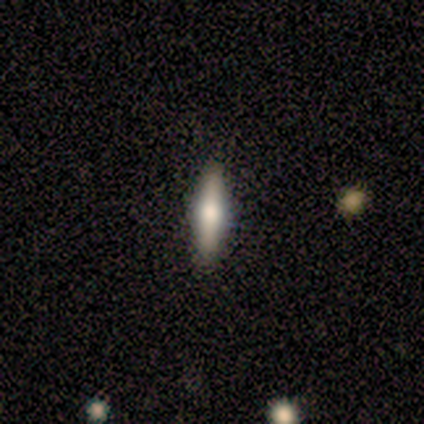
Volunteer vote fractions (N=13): Overall: featured or disk (77%). Edge-on disk: yes (100%). Edge-on bulge: rounded (100%). Merging: none (100%).